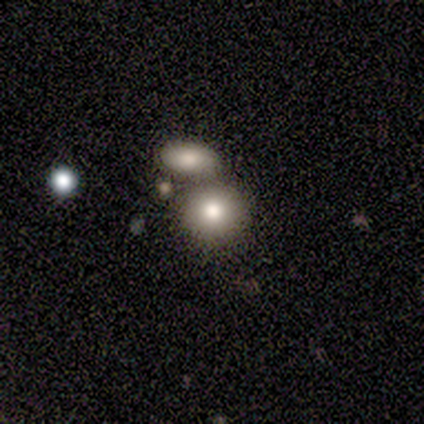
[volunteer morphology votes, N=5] Smooth or featured? smooth (80%)
How rounded? round (75%)
Merging? none (50%)